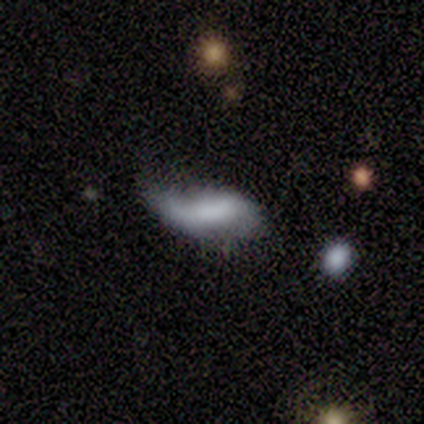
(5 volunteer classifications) smooth-or-featured: smooth: 60% | featured or disk: 20% | star or artifact: 20%
  how-rounded: in between: 100% | round: 0% | cigar-shaped: 0%
  merging: minor disturbance: 50% | major disturbance: 25% | merger: 25% | none: 0%